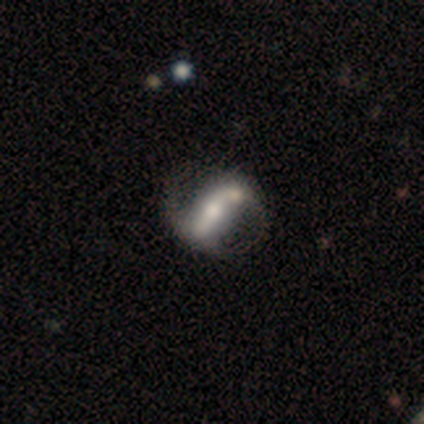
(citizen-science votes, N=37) A featured or disk galaxy (78%) with a strong bar (60%), 2 (79%) loose (58%) spiral arms (76%) and a moderate central bulge (56%). Merging: none (50%).